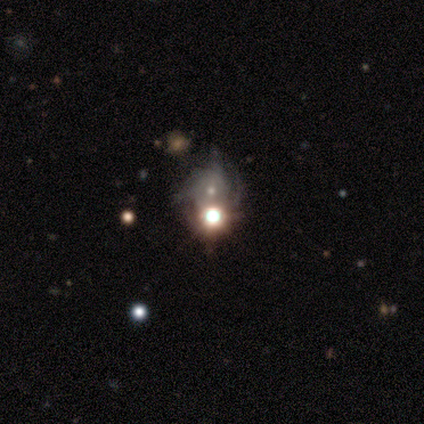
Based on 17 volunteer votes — This is possibly a star or artifact rather than a galaxy (53%).